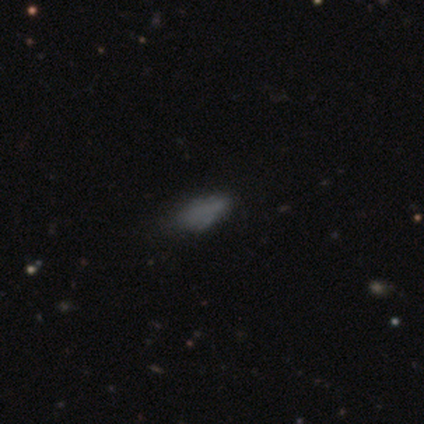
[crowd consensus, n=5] Overall: smooth (60%; featured or disk 20%). How rounded: in between (100%). Merging: none (50%; minor disturbance 25%).